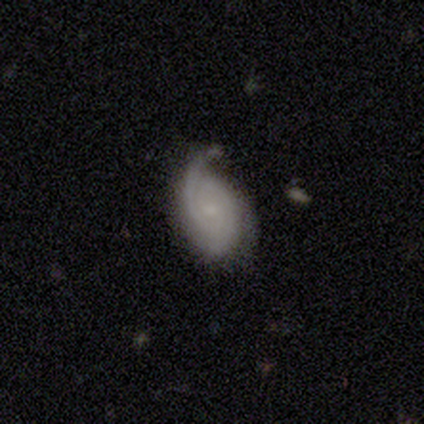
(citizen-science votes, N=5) smooth_or_featured: featured or disk (p=1.00)
disk_edge_on: no (p=1.00)
bar: no (p=0.80) [alt: weak p=0.20]
has_spiral_arms: yes (p=1.00)
spiral_winding: tight (p=0.60) [alt: medium p=0.40]
spiral_arm_count: 1 (p=0.40) [tied with: 2 p=0.40]
bulge_size: small (p=0.40) [tied with: none p=0.40]
merging: none (p=0.60) [alt: minor disturbance p=0.40]